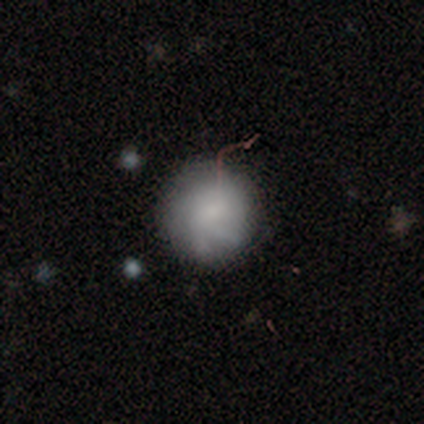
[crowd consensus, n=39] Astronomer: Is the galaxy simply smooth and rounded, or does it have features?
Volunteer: smooth — 72%.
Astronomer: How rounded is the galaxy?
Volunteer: round — 89%.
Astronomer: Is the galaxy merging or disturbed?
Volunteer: none — 74%.